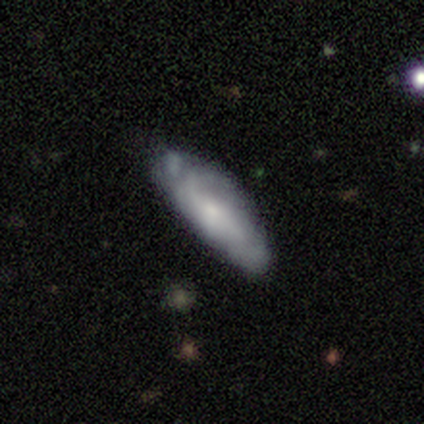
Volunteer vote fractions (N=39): Smooth or featured: featured or disk — 51% (smooth — 41%)
Edge-on disk: no — 85% (yes — 15%)
Bar: no — 76% (weak — 18%)
Spiral arms: yes — 88% (no — 12%)
Spiral winding: medium — 47% (tight — 40%)
Spiral arm count: can't tell — 80% (2 — 20%)
Bulge size: small — 59% (moderate — 29%)
Merging: none — 56% (minor disturbance — 33%)